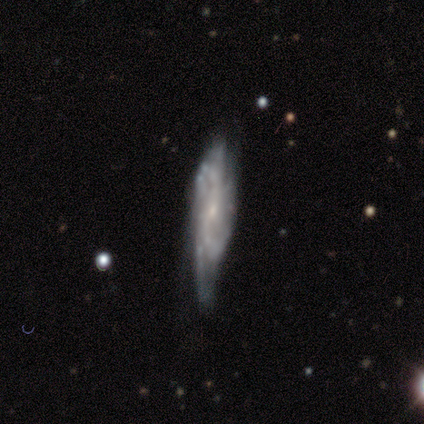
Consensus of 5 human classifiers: Smooth or featured: featured or disk — 60% (smooth — 20%)
Edge-on disk: no — 67% (yes — 33%)
Bar: weak — 50% (tied with no — 50%)
Spiral arms: yes — 100%
Spiral winding: tight — 50% (tied with medium — 50%)
Spiral arm count: 4 — 50% (tied with can't tell — 50%)
Bulge size: moderate — 50% (tied with small — 50%)
Merging: none — 50% (tied with minor disturbance — 50%)